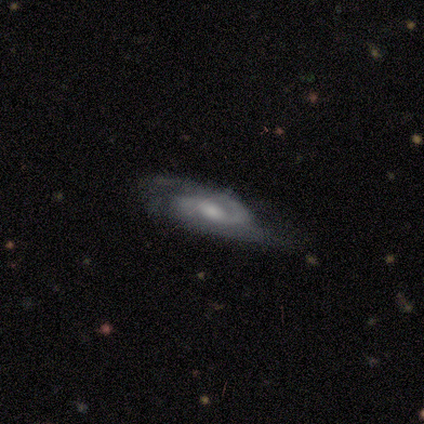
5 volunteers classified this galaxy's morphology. featured or disk 100%, smooth 0%, star or artifact 0%. Down the decision tree: edge-on disk — no (100%); bar — weak (100%); spiral arms — yes (100%); spiral arm count — 2 (60%); spiral winding — tight (60%); bulge size — moderate (100%); merging — none (60%).